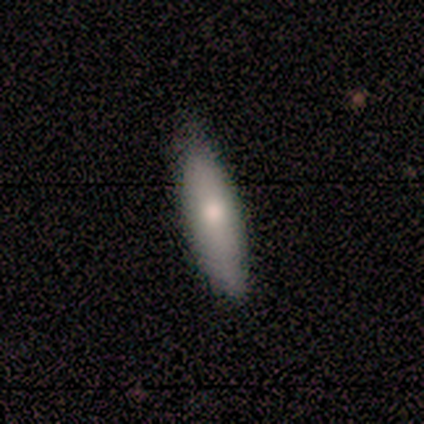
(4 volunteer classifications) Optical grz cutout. It shows a smooth galaxy with no disk features (100%) that is cigar-shaped (100%). Merging: none (50%, tied with minor disturbance).